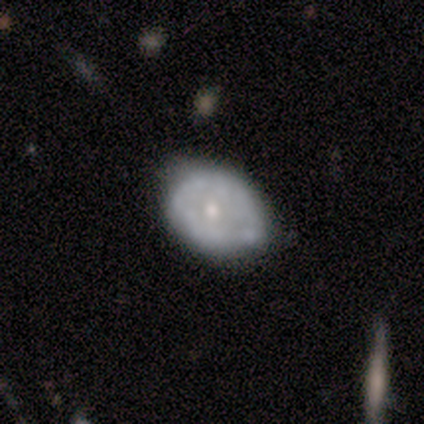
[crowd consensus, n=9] Overall: smooth (56%; featured or disk 44%). How rounded: in between (60%; round 40%). Merging: none (67%; minor disturbance 33%).